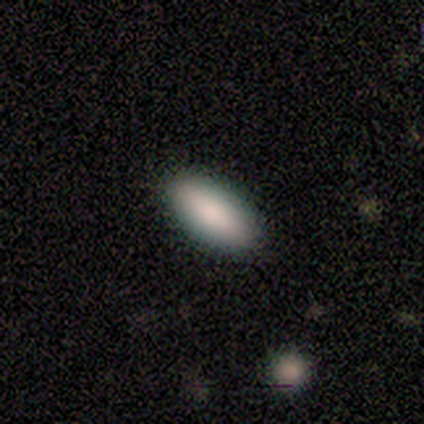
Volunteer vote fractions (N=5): This is clearly a smooth galaxy (80%). How rounded: clearly in between (100%). Merging: clearly none (100%).